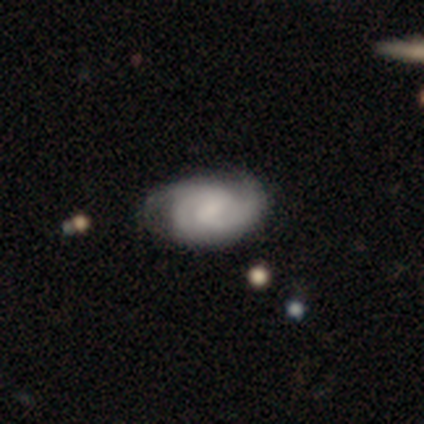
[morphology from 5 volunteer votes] This appears to be a featured or disk galaxy (100%) with a weak bar (60%), 2 (60%) medium (60%) spiral arms (100%) and no central bulge (60%). Merging: none (60%).